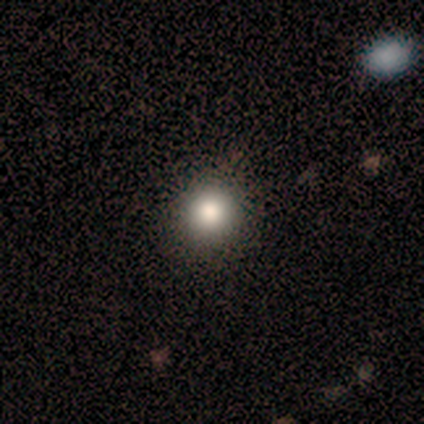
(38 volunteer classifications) smooth 82%, star or artifact 13%, featured or disk 5%. Down the decision tree: how rounded — round (90%); merging — none (88%).